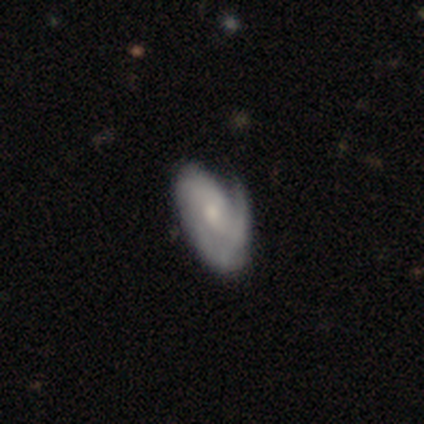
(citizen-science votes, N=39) A featured or disk galaxy (82%) with no bar (77%), 1 (58%) tight (38%) spiral arms (84%) and a moderate central bulge (45%).

Vote fractions:
- Smooth or featured? featured or disk: 82% / smooth: 18% / star or artifact: 0%
- Edge-on disk? no: 97% / yes: 3%
- Bar? no: 77% / weak: 23% / strong: 0%
- Spiral arms? yes: 84% / no: 16%
- Spiral winding? tight: 38% / medium: 31% / loose: 31%
- Spiral arm count? 1: 58% / can't tell: 27% / 2: 15% / 3: 0% / 4: 0% / more than 4: 0%
- Bulge size? moderate: 45% / small: 42% / none: 10% / large: 3% / dominant: 0%
- Merging? none: 36% / minor disturbance: 26% / major disturbance: 15% / merger: 3%